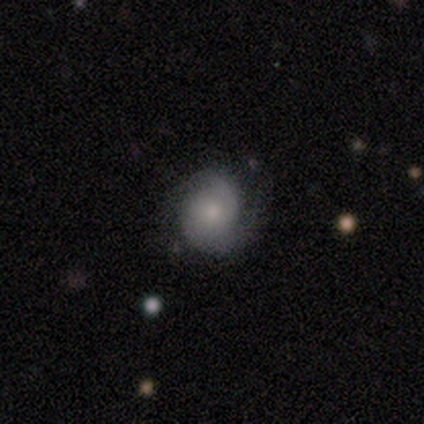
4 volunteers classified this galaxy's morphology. This is likely a featured or disk galaxy (75%). It is clearly not viewed edge-on (100%). Bar: likely no (67%). Spiral arm pattern: clearly yes (100%). Spiral arm count: likely 2 (67%). Spiral winding: likely medium (67%). Central bulge: likely moderate (67%). Merging: likely none (67%).